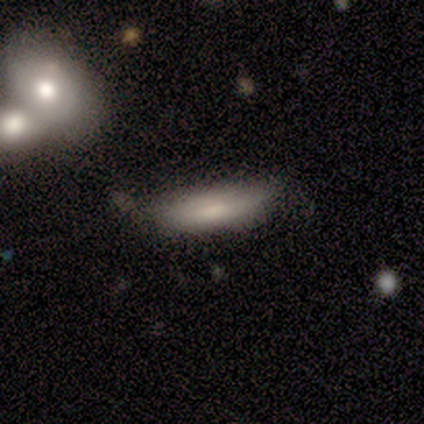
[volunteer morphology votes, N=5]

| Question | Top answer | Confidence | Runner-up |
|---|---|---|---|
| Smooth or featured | smooth | 100% | — |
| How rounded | cigar-shaped | 80% | in between (20%) |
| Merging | none | 100% | — |